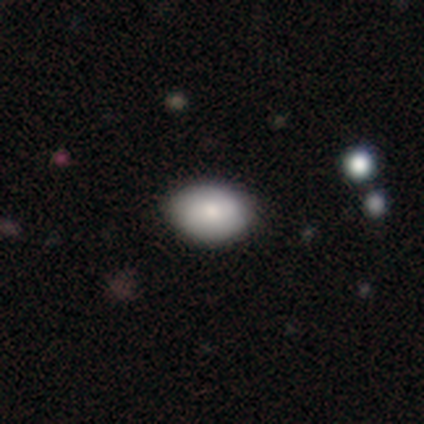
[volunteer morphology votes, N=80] This is clearly a smooth galaxy (92%). How rounded: clearly in between (88%). Merging: marginally none (39%).